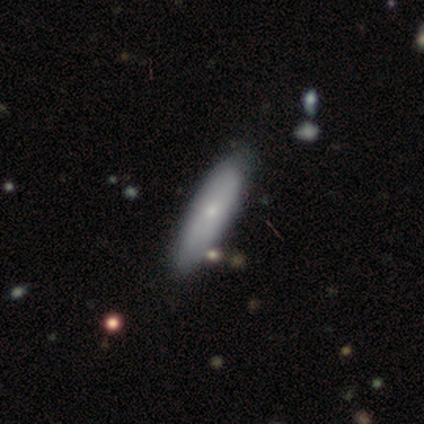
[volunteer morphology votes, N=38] Smooth or featured? 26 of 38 (68%) said smooth. How rounded? 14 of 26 (54%) said cigar-shaped. Merging? 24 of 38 (63%) said none.